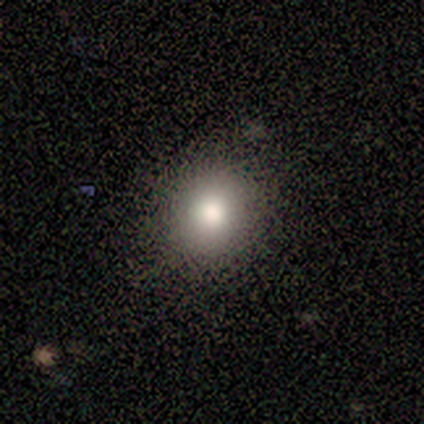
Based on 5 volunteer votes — Volunteers were most divided on "how rounded" (2-way tie): round: 50%, in between: 50%, cigar-shaped: 0%. More confident: merging — none (100%); smooth or featured — smooth (80%).